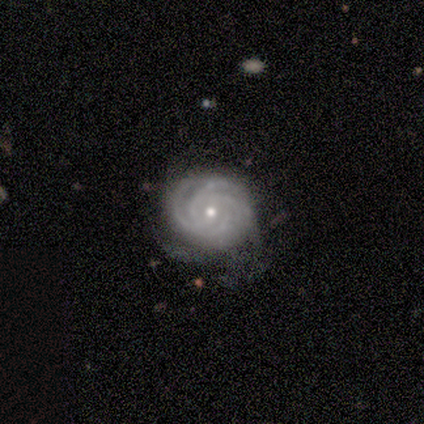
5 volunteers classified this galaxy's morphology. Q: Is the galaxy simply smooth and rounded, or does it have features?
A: featured or disk — 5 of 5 (100%).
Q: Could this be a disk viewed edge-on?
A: no — 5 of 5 (100%).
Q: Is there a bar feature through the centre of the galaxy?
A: no — 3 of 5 (60%).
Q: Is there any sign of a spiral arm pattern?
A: yes — 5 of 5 (100%).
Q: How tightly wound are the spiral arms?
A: tight — 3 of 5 (60%).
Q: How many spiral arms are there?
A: can't tell — 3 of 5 (60%).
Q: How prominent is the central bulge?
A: small — 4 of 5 (80%).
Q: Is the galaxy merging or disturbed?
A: none — 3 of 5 (60%).